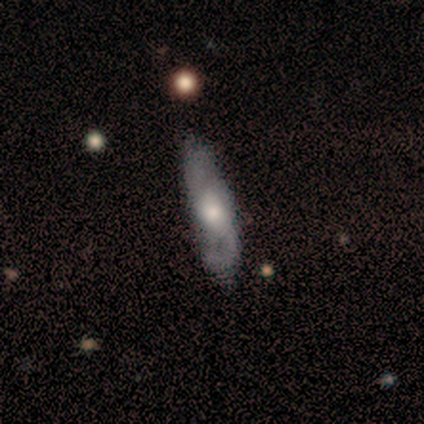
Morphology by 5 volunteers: Overall: featured or disk (80%). Edge-on disk: no (100%). Bar: no (75%). Spiral arms: yes (100%). Spiral arm count: 2 (75%). Spiral winding: loose (50%; tight 25%). Bulge size: moderate (100%). Merging: none (100%).